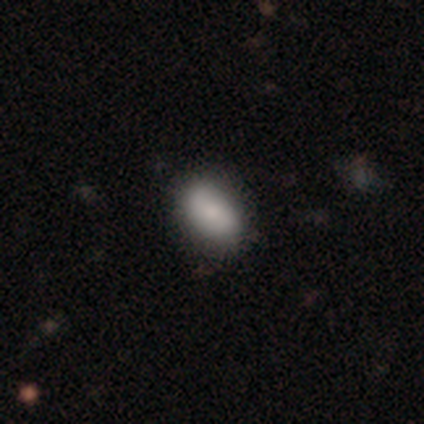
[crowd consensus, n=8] A smooth galaxy with no disk features (88%) that is in between round and cigar-shaped (86%). Merging: none (88%).